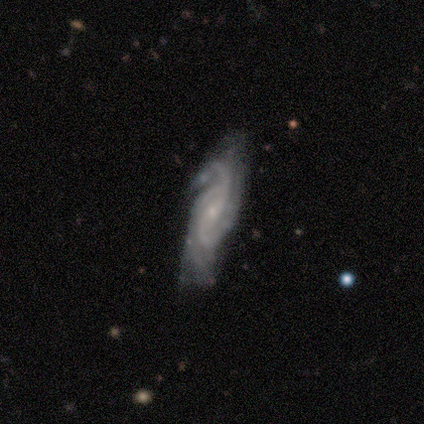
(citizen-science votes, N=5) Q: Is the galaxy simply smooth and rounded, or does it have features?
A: featured or disk — 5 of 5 (100%).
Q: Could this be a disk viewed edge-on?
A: no — 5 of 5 (100%).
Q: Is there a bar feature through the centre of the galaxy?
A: strong — 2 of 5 (40%, tied with weak).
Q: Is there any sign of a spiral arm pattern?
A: yes — 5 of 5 (100%).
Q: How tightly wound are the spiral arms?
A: medium — 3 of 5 (60%).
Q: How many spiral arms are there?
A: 3 — 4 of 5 (80%).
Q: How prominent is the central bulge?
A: small — 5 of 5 (100%).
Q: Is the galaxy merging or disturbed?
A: major disturbance — 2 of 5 (40%).